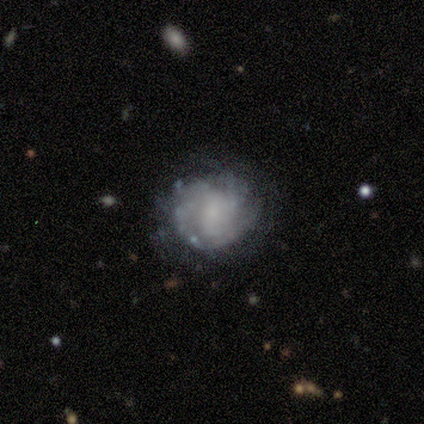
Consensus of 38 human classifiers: A featured or disk galaxy (87%) with no bar (70%), tight (54%) spiral arms (85%) and a small central bulge (58%). Merging: none (68%).